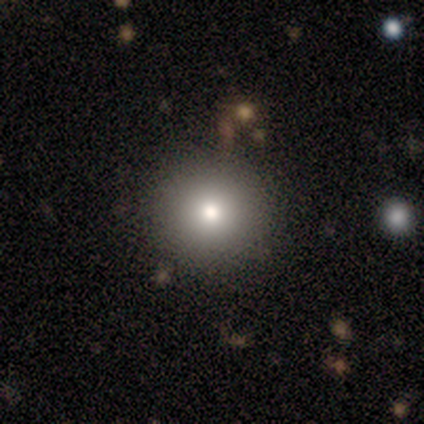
A smooth galaxy with no disk features (80%) that is round (100%). Merging: none (75%).